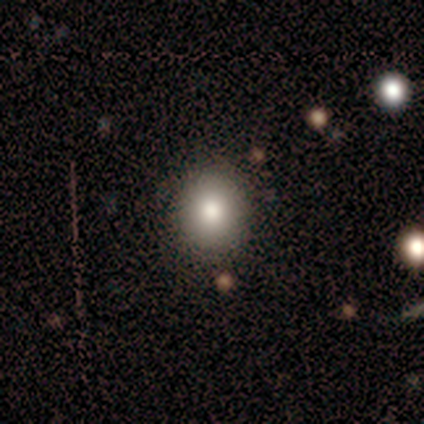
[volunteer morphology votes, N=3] smooth-or-featured: star or artifact: 67% | smooth: 33% | featured or disk: 0%